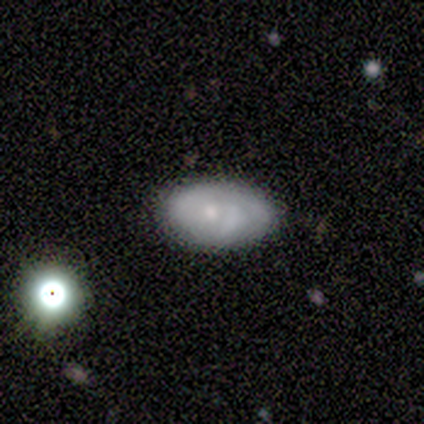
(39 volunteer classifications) featured or disk 46%, smooth 44%, star or artifact 10%. Down the decision tree: edge-on disk — no (83%); bar — no (93%); spiral arms — yes (80%); spiral arm count — 2 (50%); spiral winding — medium (58%); bulge size — small (60%); merging — none (69%).